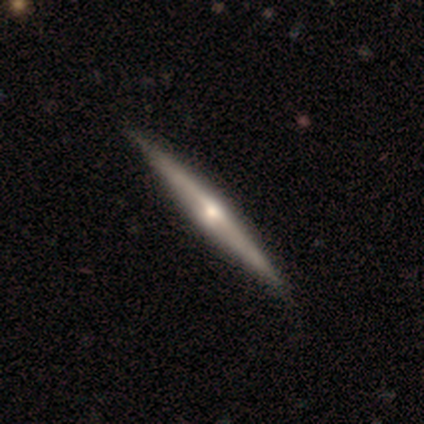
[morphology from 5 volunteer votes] featured or disk 80%, smooth 20%, star or artifact 0%. Down the decision tree: edge-on disk — yes (100%); edge-on bulge — rounded (75%); merging — none (100%).